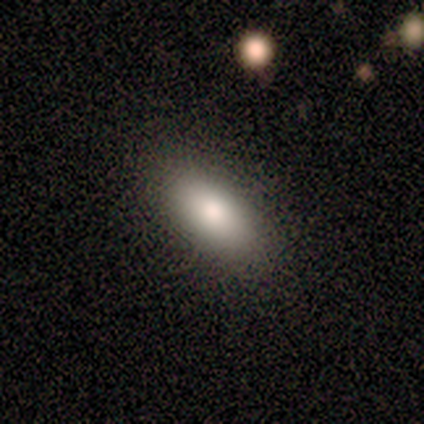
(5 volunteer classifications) Smooth or featured: smooth — 100%
How rounded: in between — 100%
Merging: none — 100%